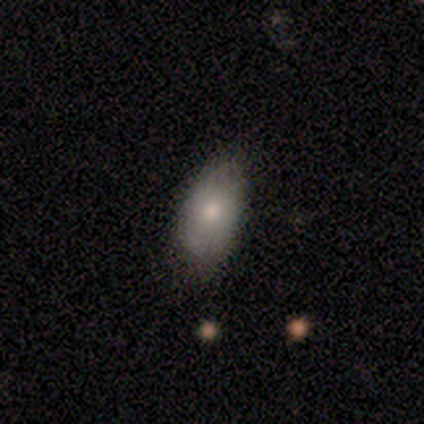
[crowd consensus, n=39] Smooth or featured? 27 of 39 (69%) said smooth. How rounded? 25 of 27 (93%) said in between. Merging? 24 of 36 (67%) said none.